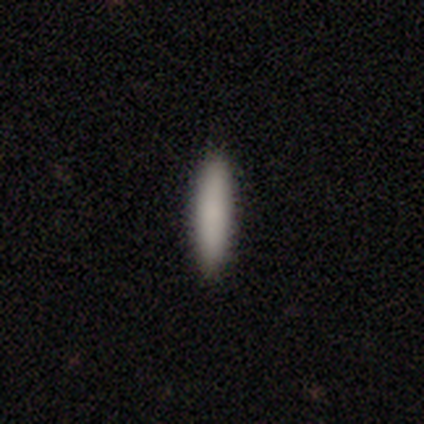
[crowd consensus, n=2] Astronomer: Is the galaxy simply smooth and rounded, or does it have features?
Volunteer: smooth — 100%.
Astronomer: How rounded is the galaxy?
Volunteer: in between — 50%, tied with cigar-shaped at 50%.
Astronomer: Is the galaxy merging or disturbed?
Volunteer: none — 100%.